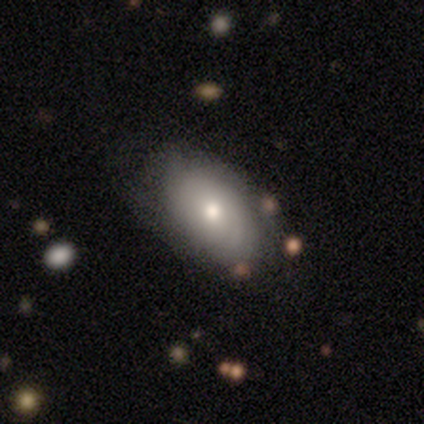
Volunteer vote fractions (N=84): Smooth or featured: smooth — 60% (featured or disk — 35%)
How rounded: in between — 90% (round — 6%)
Merging: none — 70% (minor disturbance — 20%)